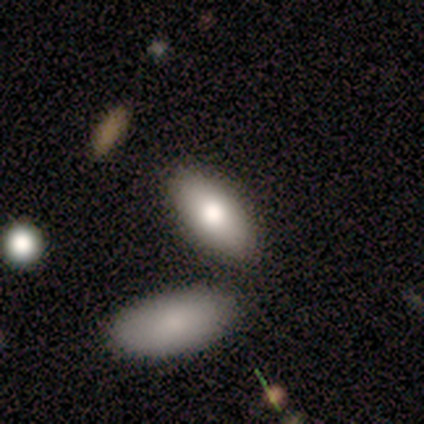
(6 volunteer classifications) Q: Smooth or featured?
A: smooth (67%); runner-up: featured or disk (17%)
Q: How rounded?
A: in between (50%); runner-up: round (25%)
Q: Merging?
A: none (80%); runner-up: merger (20%)